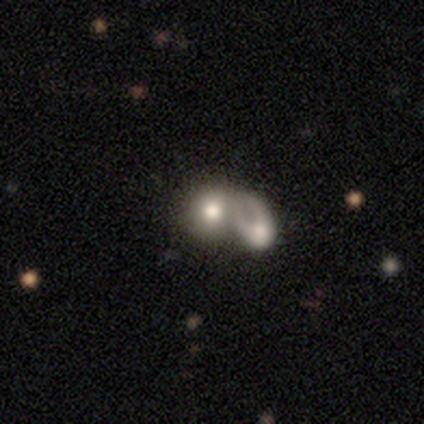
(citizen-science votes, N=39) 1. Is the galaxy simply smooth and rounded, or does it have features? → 72% smooth, 26% featured or disk, 3% star or artifact.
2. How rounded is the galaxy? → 82% round, 18% in between, 0% cigar-shaped.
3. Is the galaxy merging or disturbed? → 55% merger, 11% none, 5% major disturbance, 0% minor disturbance.